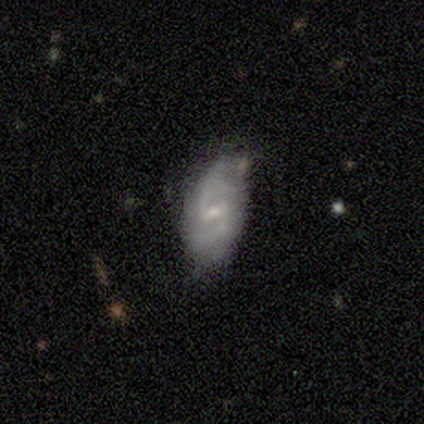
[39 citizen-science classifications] featured or disk 69%, smooth 23%, star or artifact 8%. Down the decision tree: edge-on disk — no (96%); bar — weak (65%); spiral arms — yes (96%); spiral arm count — 2 (96%); spiral winding — loose (44%); bulge size — small (73%); merging — none (53%).